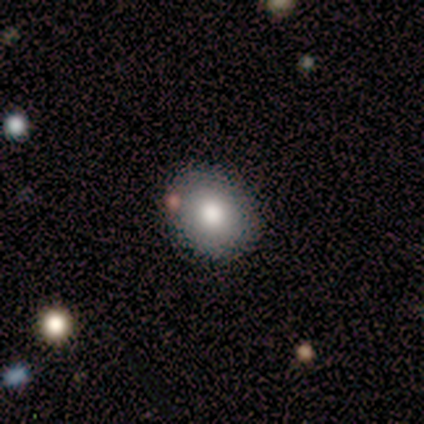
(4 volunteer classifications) This appears to be a star or artifact, not a galaxy (50%).